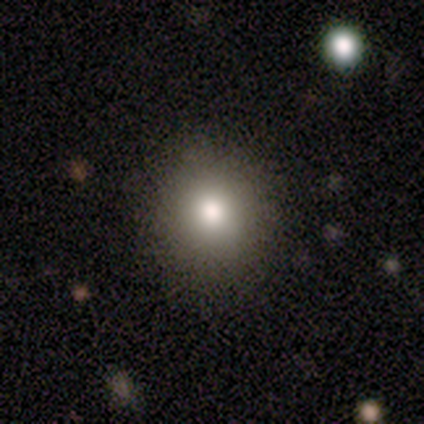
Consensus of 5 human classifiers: smooth 80%, featured or disk 20%, star or artifact 0%. Down the decision tree: how rounded — round (100%); merging — none (80%).